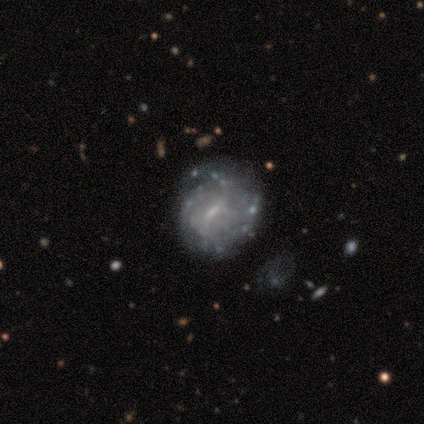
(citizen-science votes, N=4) smooth-or-featured: featured or disk: 75% | smooth: 25% | star or artifact: 0%
  disk-edge-on: no: 100% | yes: 0%
    bar: weak: 67% | strong: 33% | no: 0%
    has-spiral-arms: yes: 100% | no: 0%
      spiral-winding: medium: 67% | tight: 33% | loose: 0%
      spiral-arm-count: can't tell: 67% | 2: 33% | 1: 0% | 3: 0% | 4: 0% | more than 4: 0%
    bulge-size: moderate: 67% | small: 33% | dominant: 0% | large: 0% | none: 0%
  merging: none: 50% | minor disturbance: 25% | merger: 25% | major disturbance: 0%